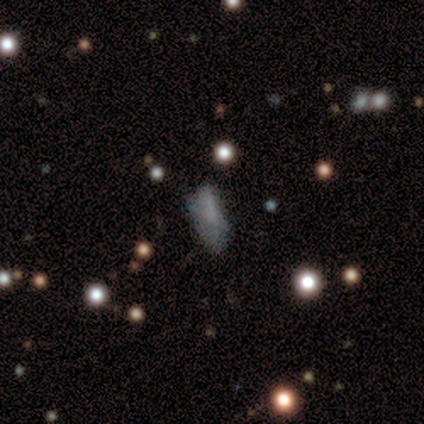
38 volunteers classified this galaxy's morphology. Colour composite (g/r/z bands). It shows a smooth galaxy with no disk features (53%) that is in between round and cigar-shaped (55%). Merging: none (47%).